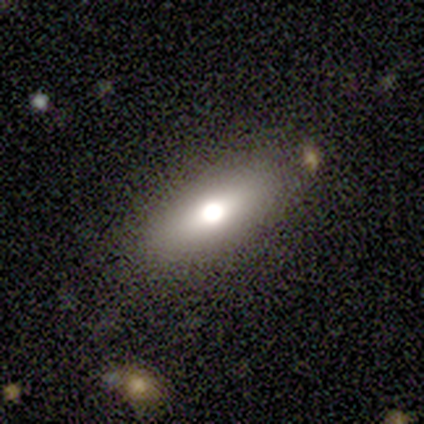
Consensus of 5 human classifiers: This appears to be a smooth galaxy with no disk features (60%) that is in between round and cigar-shaped (100%). Merging: none (80%).